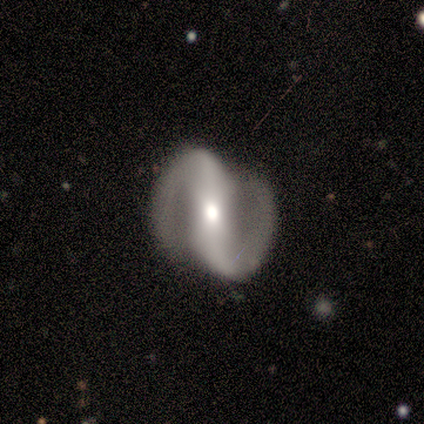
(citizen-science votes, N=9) Smooth or featured? featured or disk (89%)
Edge-on disk? no (100%)
Bar? strong (62%)
Spiral arms? yes (100%)
Spiral winding? medium (62%)
Spiral arm count? 2 (100%)
Bulge size? moderate (62%)
Merging? none (88%)